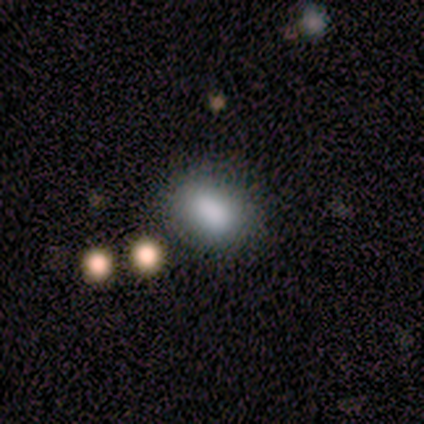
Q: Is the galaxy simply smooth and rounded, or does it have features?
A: smooth — 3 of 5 (60%).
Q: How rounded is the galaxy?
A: in between — 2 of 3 (67%).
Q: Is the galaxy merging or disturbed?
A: minor disturbance — 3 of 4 (75%).